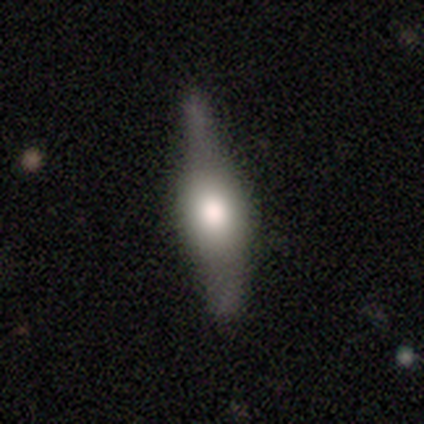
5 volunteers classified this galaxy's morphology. Overall: featured or disk (80%). Edge-on disk: yes (75%). Edge-on bulge: rounded (100%). Merging: none (40%, tied with minor disturbance).